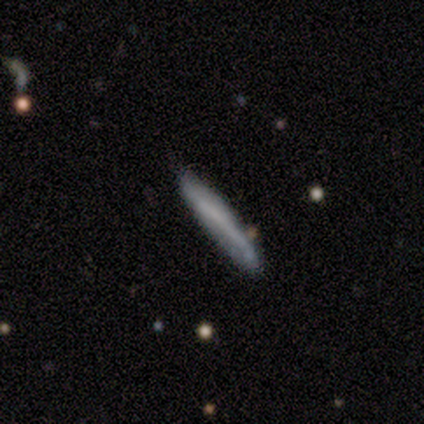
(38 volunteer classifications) smooth-or-featured: smooth: 55% | featured or disk: 45% | star or artifact: 0%
  how-rounded: cigar-shaped: 100% | round: 0% | in between: 0%
  merging: none: 82% | minor disturbance: 13% | merger: 5% | major disturbance: 0%